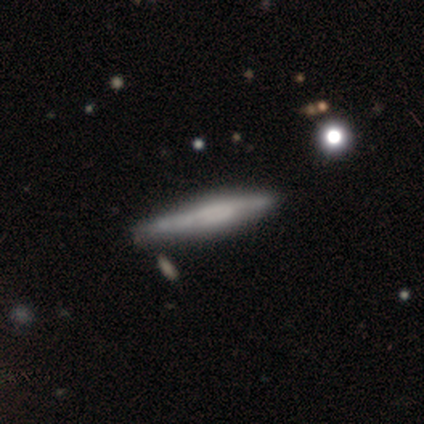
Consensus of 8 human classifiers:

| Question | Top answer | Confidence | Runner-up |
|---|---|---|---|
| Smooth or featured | smooth | 50% | tied: featured or disk (50%) |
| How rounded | cigar-shaped | 100% | — |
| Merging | minor disturbance | 62% | none (38%) |